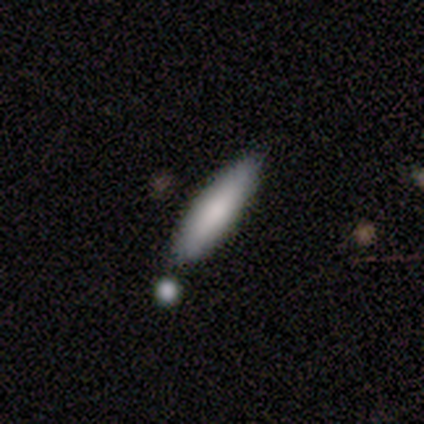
smooth 100%, featured or disk 0%, star or artifact 0%. Down the decision tree: how rounded — cigar-shaped (80%); merging — none (100%).